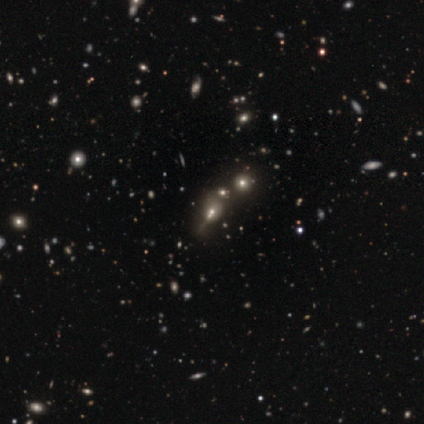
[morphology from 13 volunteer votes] Volunteers were most divided on "smooth or featured": smooth: 46%, star or artifact: 38%, featured or disk: 15%. More confident: how rounded — in between (100%); merging — merger (50%).